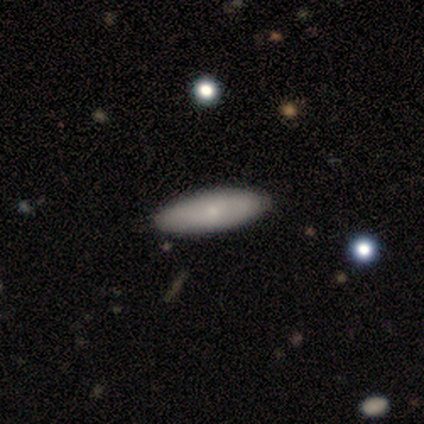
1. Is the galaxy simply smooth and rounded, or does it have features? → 77% smooth, 21% featured or disk, 3% star or artifact.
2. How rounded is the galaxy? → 70% in between, 30% cigar-shaped, 0% round.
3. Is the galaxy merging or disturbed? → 82% none, 3% minor disturbance, 0% major disturbance, 0% merger.